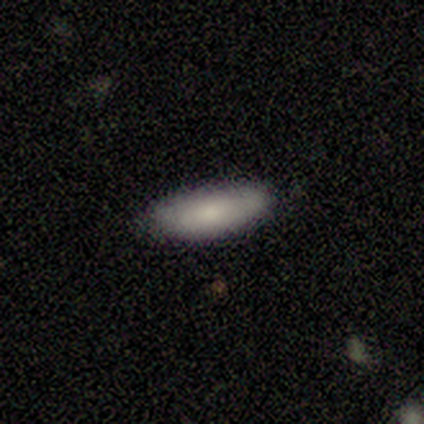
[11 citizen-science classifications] A smooth galaxy with no disk features (73%) that is in between round and cigar-shaped (75%).

Vote fractions:
- Smooth or featured? smooth: 73% / featured or disk: 27% / star or artifact: 0%
- How rounded? in between: 75% / cigar-shaped: 25% / round: 0%
- Merging? none: 91% / minor disturbance: 9% / major disturbance: 0% / merger: 0%